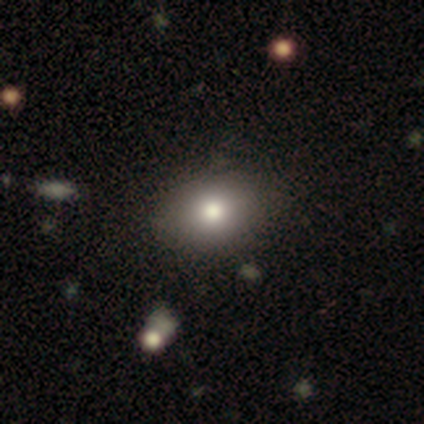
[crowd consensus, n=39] Smooth or featured: smooth — 72% (featured or disk — 21%)
How rounded: in between — 64% (round — 36%)
Merging: none — 83%